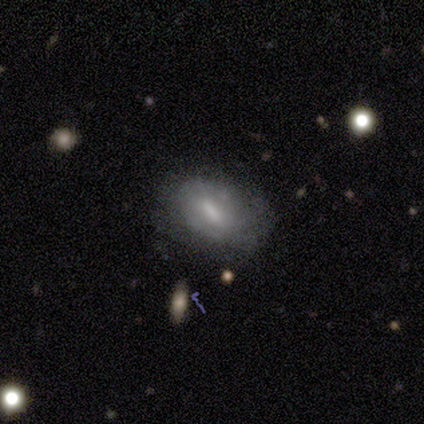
Smooth or featured: smooth — 54% (featured or disk — 40%)
How rounded: in between — 74% (cigar-shaped — 15%)
Merging: none — 60% (minor disturbance — 28%)